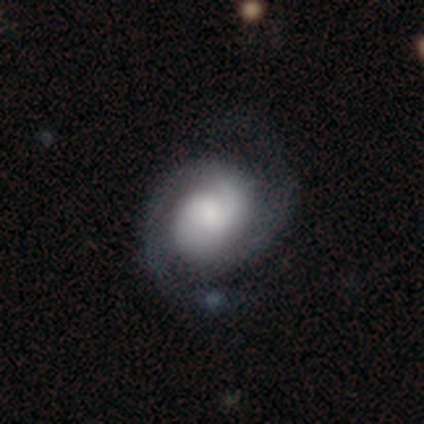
smooth_or_featured: featured or disk (p=1.00)
disk_edge_on: no (p=1.00)
bar: weak (p=0.40) [tied with: no p=0.40]
has_spiral_arms: yes (p=1.00)
spiral_winding: medium (p=0.60) [alt: tight p=0.40]
spiral_arm_count: 2 (p=0.80) [alt: can't tell p=0.20]
bulge_size: moderate (p=0.60) [alt: large p=0.40]
merging: none (p=1.00)